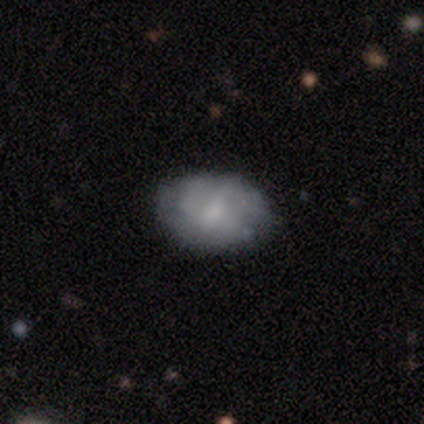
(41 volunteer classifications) A smooth galaxy with no disk features (46%) that is in between round and cigar-shaped (84%). Merging: none (89%).